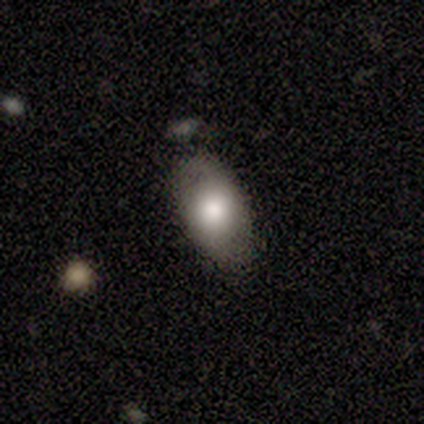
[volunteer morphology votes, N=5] This appears to be a smooth galaxy with no disk features (80%) that is in between round and cigar-shaped (100%). Merging: none (80%).